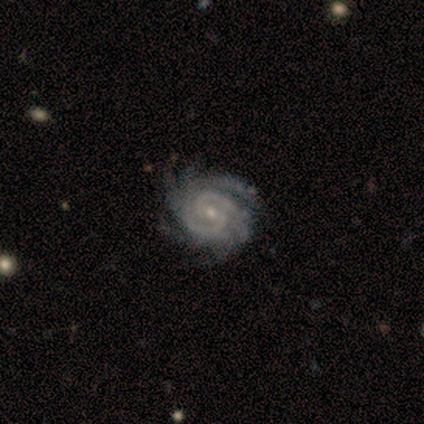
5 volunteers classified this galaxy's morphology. Q: Smooth or featured?
A: featured or disk (100%)
Q: Edge-on disk?
A: no (100%)
Q: Bar?
A: weak (60%); runner-up: no (40%)
Q: Spiral arms?
A: yes (100%)
Q: Spiral winding?
A: tight (60%); runner-up: medium (40%)
Q: Spiral arm count?
A: 2 (40%); runner-up: 3 (20%)
Q: Bulge size?
A: small (80%); runner-up: moderate (20%)
Q: Merging?
A: none (100%)